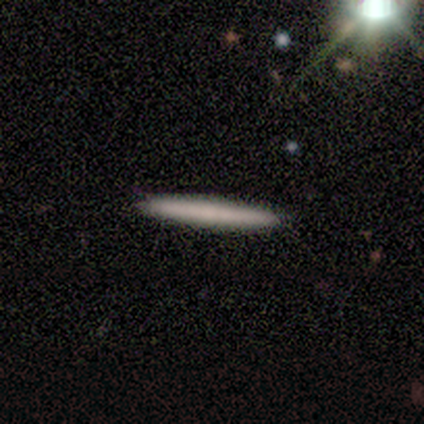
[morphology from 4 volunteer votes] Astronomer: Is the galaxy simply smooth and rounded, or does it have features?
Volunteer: smooth — 100%.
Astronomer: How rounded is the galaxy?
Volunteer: cigar-shaped — 100%.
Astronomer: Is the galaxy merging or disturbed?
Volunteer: none — 100%.